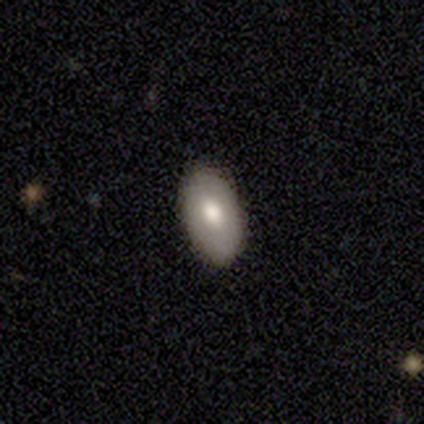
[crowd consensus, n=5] Morphology: type=smooth (80%); roundness=in between (100%); merging=none (100%).